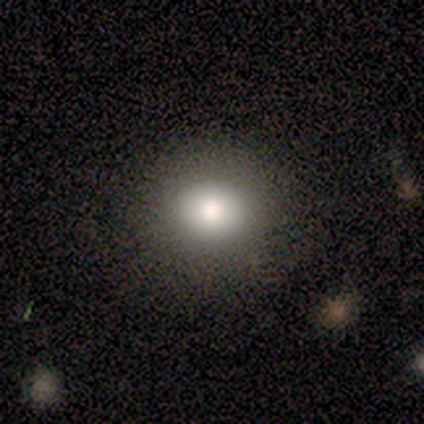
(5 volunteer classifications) This is clearly a smooth galaxy (80%). How rounded: clearly round (100%). Merging: clearly none (100%).